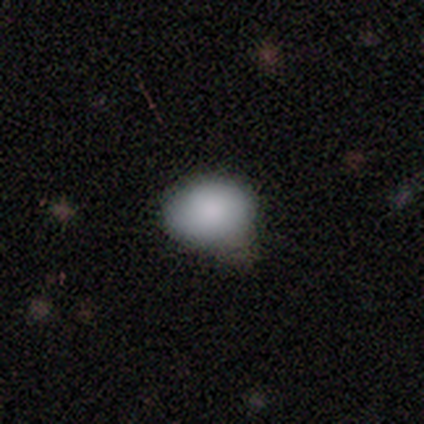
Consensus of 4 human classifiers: Smooth or featured? smooth (100%)
How rounded? round (50%, tied with in between)
Merging? none (50%)